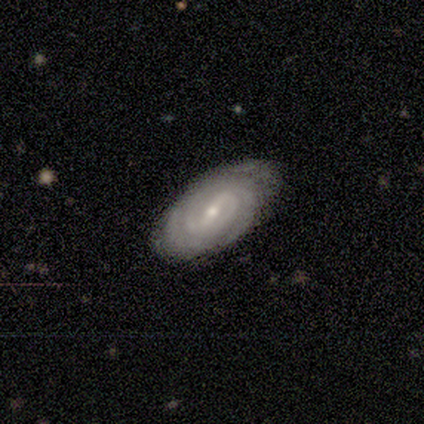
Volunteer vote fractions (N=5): Smooth or featured?
  - featured or disk: 80% *
  - star or artifact: 20%
  - smooth: 0%
Edge-on disk?
  - no: 75% *
  - yes: 25%
Bar?
  - weak: 67% *
  - strong: 33%
  - no: 0%
Spiral arms?
  - yes: 100% *
  - no: 0%
Spiral winding?
  - tight: 67% *
  - medium: 33%
  - loose: 0%
Spiral arm count?
  - can't tell: 67% *
  - 2: 33%
  - 1: 0%
  - 3: 0%
  - 4: 0%
  - more than 4: 0%
Bulge size?
  - small: 100% *
  - dominant: 0%
  - large: 0%
  - moderate: 0%
  - none: 0%
Merging?
  - none: 100% *
  - minor disturbance: 0%
  - major disturbance: 0%
  - merger: 0%